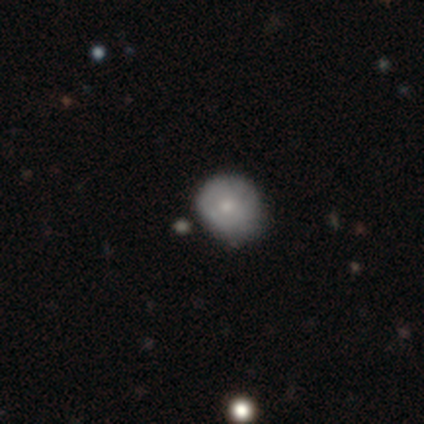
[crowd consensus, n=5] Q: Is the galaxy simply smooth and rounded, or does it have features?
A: smooth — 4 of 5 (80%).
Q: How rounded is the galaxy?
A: round — 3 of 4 (75%).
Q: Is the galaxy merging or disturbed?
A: none — 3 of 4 (75%).